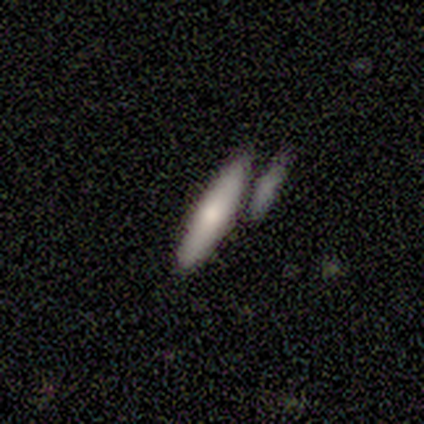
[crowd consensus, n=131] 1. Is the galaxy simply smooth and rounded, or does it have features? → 69% smooth, 27% featured or disk, 5% star or artifact.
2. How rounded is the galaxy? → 86% cigar-shaped, 14% in between, 0% round.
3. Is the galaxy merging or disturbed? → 60% none, 22% merger, 14% minor disturbance, 5% major disturbance.